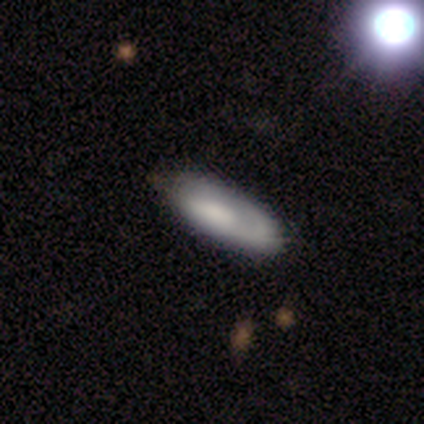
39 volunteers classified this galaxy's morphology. type=smooth (51%); roundness=in between (75%); merging=none (78%).